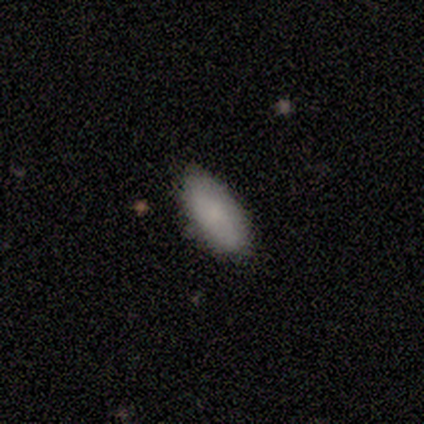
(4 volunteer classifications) This appears to be a smooth galaxy with no disk features (75%) that is in between round and cigar-shaped (100%). Merging: none (50%, tied with minor disturbance).